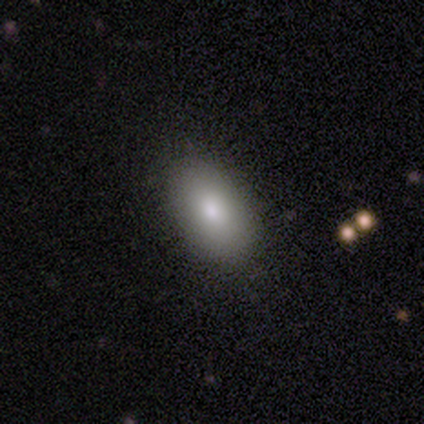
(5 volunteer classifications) smooth-or-featured: smooth: 80% | featured or disk: 20% | star or artifact: 0%
  how-rounded: in between: 100% | round: 0% | cigar-shaped: 0%
  merging: none: 100% | minor disturbance: 0% | major disturbance: 0% | merger: 0%